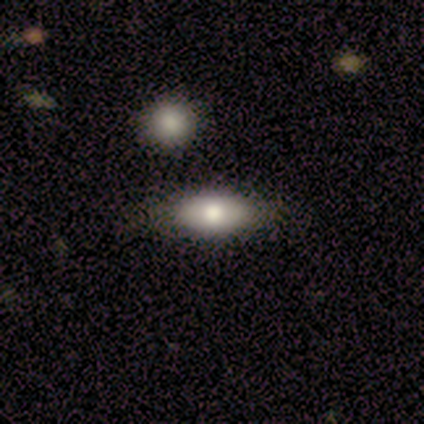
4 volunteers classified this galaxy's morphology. Q: Smooth or featured?
A: featured or disk (50%); runner-up: smooth (25%)
Q: Edge-on disk?
A: yes (50%); tied with: no (50%)
Q: Edge-on bulge?
A: rounded (100%)
Q: Merging?
A: none (67%); runner-up: minor disturbance (33%)